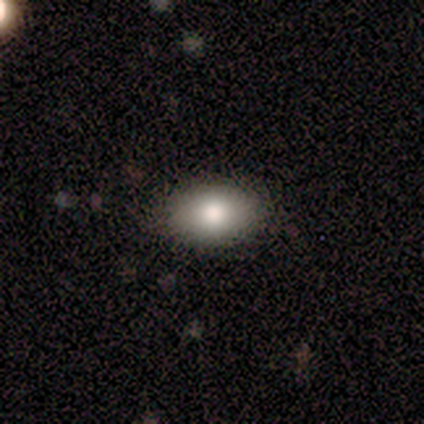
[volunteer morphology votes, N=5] smooth-or-featured: smooth: 100% | featured or disk: 0% | star or artifact: 0%
  how-rounded: in between: 100% | round: 0% | cigar-shaped: 0%
  merging: none: 100% | minor disturbance: 0% | major disturbance: 0% | merger: 0%